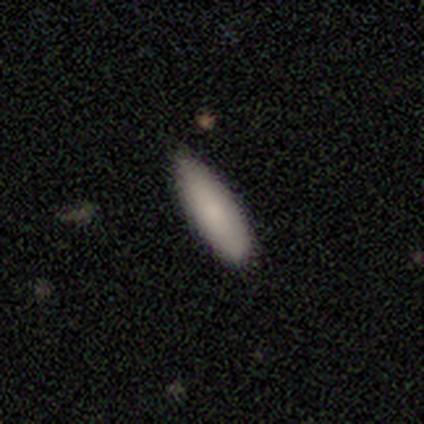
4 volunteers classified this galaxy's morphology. type=smooth (50%); roundness=cigar-shaped (100%); merging=none (100%).